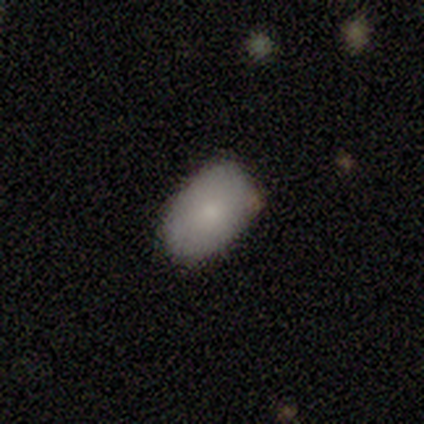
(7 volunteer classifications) smooth 100%, featured or disk 0%, star or artifact 0%. Down the decision tree: how rounded — in between (100%); merging — none (100%).